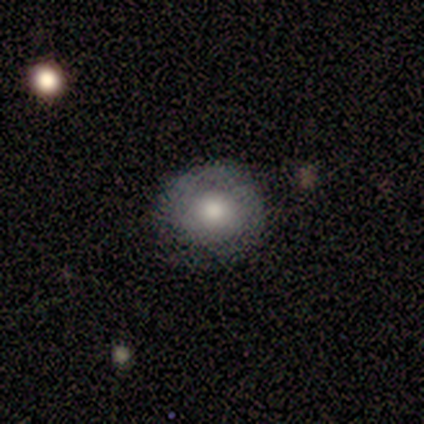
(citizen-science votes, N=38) Smooth or featured?
  - smooth: 63% *
  - featured or disk: 26%
  - star or artifact: 11%
How rounded?
  - round: 96% *
  - in between: 4%
  - cigar-shaped: 0%
Merging?
  - none: 82% *
  - minor disturbance: 18%
  - major disturbance: 0%
  - merger: 0%